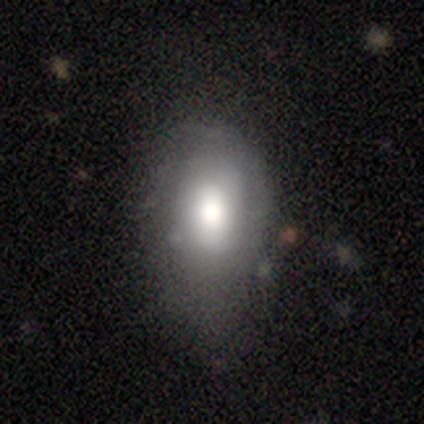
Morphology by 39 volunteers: A smooth galaxy with no disk features (79%) that is in between round and cigar-shaped (90%).

Vote fractions:
- Smooth or featured? smooth: 79% / featured or disk: 13% / star or artifact: 8%
- How rounded? in between: 90% / round: 10% / cigar-shaped: 0%
- Merging? none: 56% / major disturbance: 14% / minor disturbance: 6% / merger: 0%